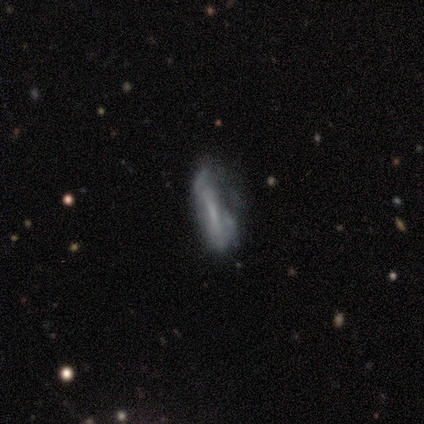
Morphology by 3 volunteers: Smooth or featured? featured or disk (67%)
Edge-on disk? no (100%)
Bar? strong (50%, tied with weak)
Spiral arms? no (100%)
Bulge size? none (100%)
Merging? major disturbance (67%)